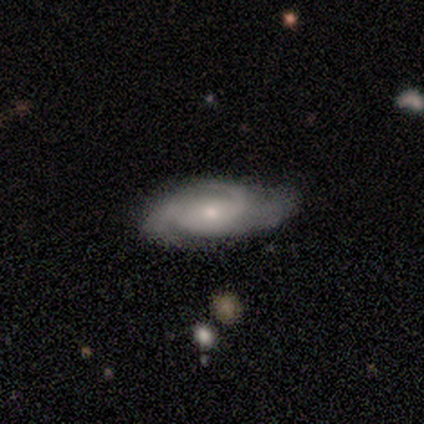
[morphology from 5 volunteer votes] Overall: featured or disk (100%). Edge-on disk: no (100%). Bar: no (60%; weak 40%). Spiral arms: yes (100%). Spiral arm count: 3 (80%). Spiral winding: medium (80%). Bulge size: moderate (80%). Merging: none (100%).